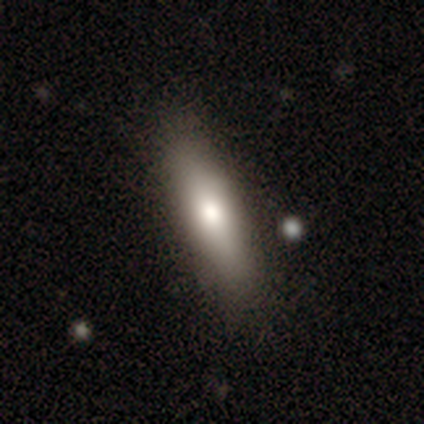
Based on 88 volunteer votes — A smooth galaxy with no disk features (76%) that is cigar-shaped (64%).

Vote fractions:
- Smooth or featured? smooth: 76% / featured or disk: 18% / star or artifact: 6%
- How rounded? cigar-shaped: 64% / in between: 36% / round: 0%
- Merging? none: 86% / minor disturbance: 12% / major disturbance: 1% / merger: 1%